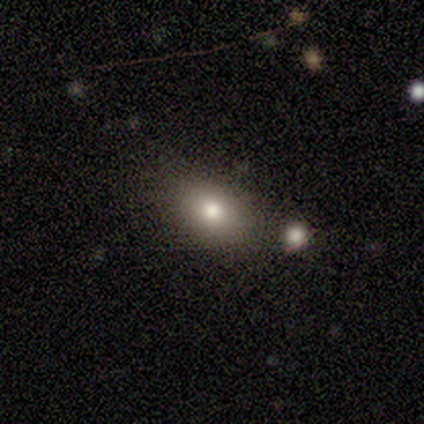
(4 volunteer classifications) Smooth or featured: smooth — 75% (star or artifact — 25%)
How rounded: in between — 100%
Merging: none — 67% (merger — 33%)